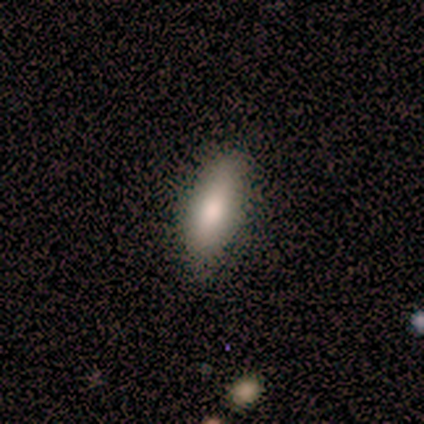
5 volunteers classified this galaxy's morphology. This is clearly a smooth galaxy (100%). How rounded: clearly in between (100%). Merging: likely none (60%).